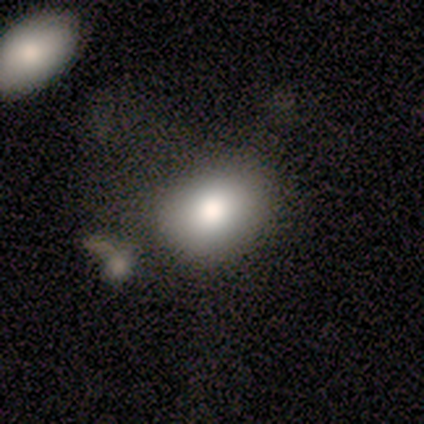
smooth_or_featured: smooth (p=0.80) [alt: star or artifact p=0.20]
how_rounded: in between (p=1.00)
merging: none (p=0.50) [alt: minor disturbance p=0.25]